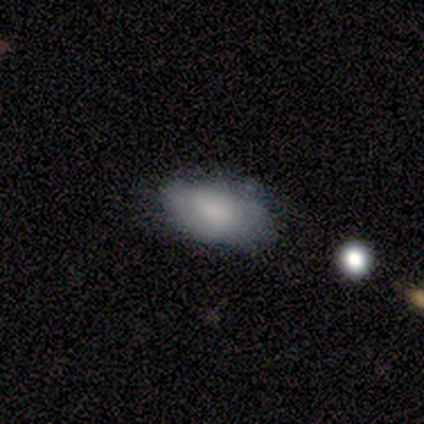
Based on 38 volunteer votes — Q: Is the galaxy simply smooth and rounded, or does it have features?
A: smooth — 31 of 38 (82%).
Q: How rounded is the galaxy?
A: in between — 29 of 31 (94%).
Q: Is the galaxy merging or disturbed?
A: none — 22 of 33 (67%).